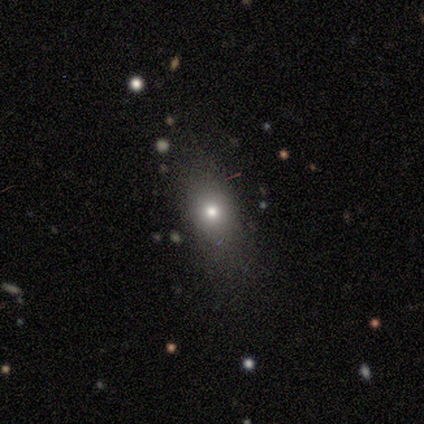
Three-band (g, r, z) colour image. It shows a smooth galaxy with no disk features (80%) that is round (50%). Merging: none (60%).